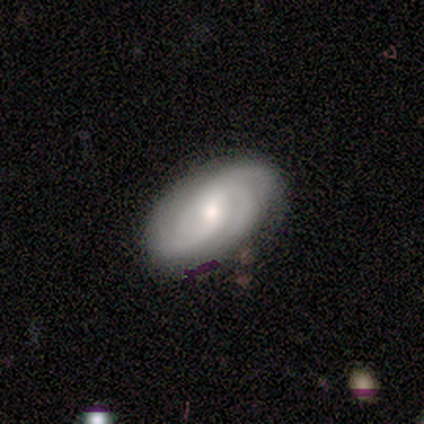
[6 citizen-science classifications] Q: Smooth or featured?
A: smooth (50%); runner-up: featured or disk (33%)
Q: How rounded?
A: in between (100%)
Q: Merging?
A: none (100%)